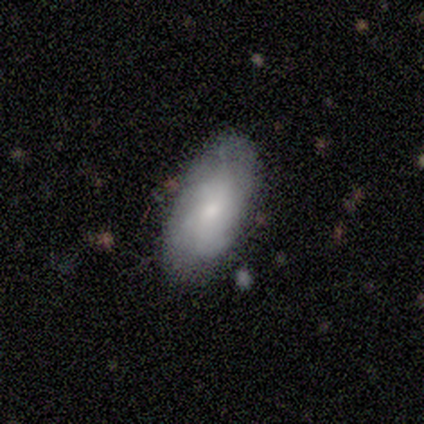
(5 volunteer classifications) A smooth galaxy with no disk features (60%) that is in between round and cigar-shaped (100%). Merging: none (50%, tied with minor disturbance).